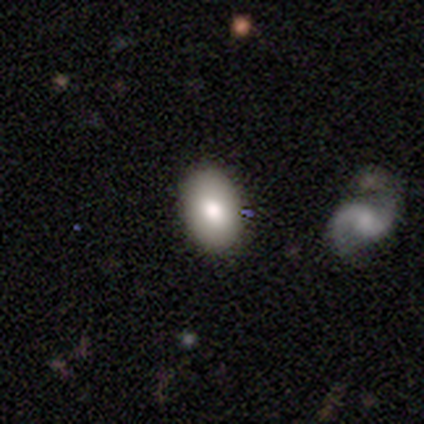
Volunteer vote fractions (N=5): This is likely a smooth galaxy (60%). How rounded: likely in between (67%). Merging: marginally none (40%).